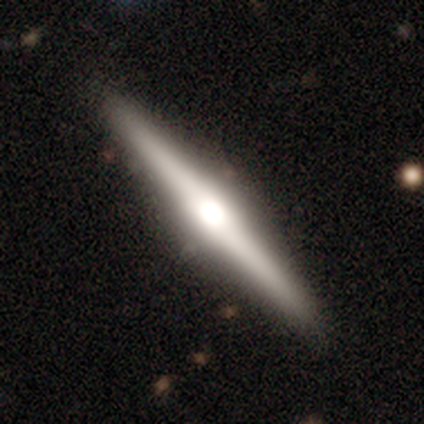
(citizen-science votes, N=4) This appears to be a featured or disk galaxy (75%) viewed edge-on (100%) with a rounded central bulge (100%). Merging: none (100%).